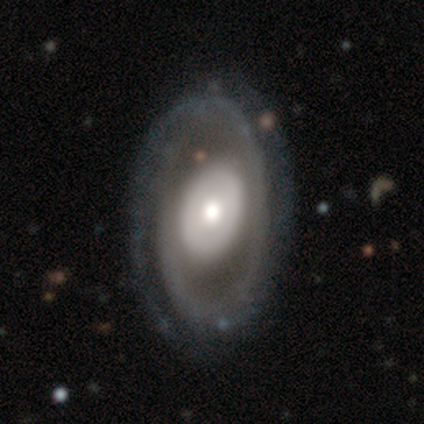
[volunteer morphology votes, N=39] Smooth or featured? featured or disk (92%)
Edge-on disk? no (97%)
Bar? no (83%)
Spiral arms? yes (71%)
Spiral winding? tight (60%)
Spiral arm count? 1 (36%, tied with 2)
Bulge size? moderate (57%)
Merging? none (54%)